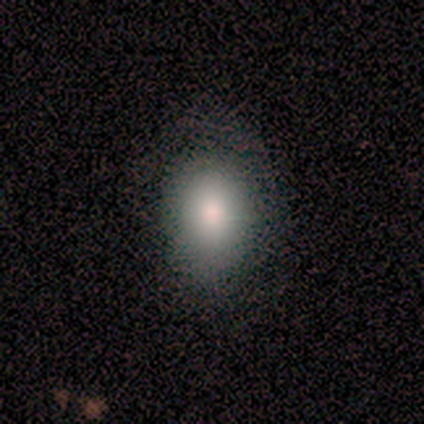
Morphology: type=smooth (82%); roundness=round (56%); merging=none (73%).